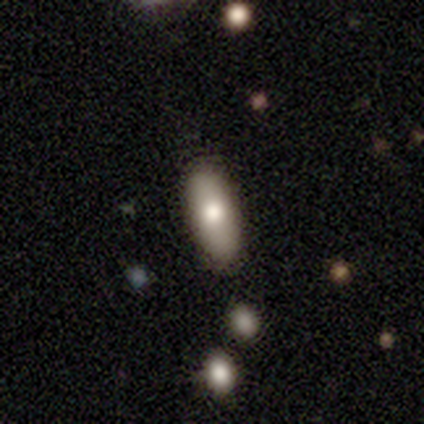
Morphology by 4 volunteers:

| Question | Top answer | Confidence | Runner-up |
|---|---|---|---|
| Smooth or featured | smooth | 100% | — |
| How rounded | in between | 100% | — |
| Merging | none | 100% | — |